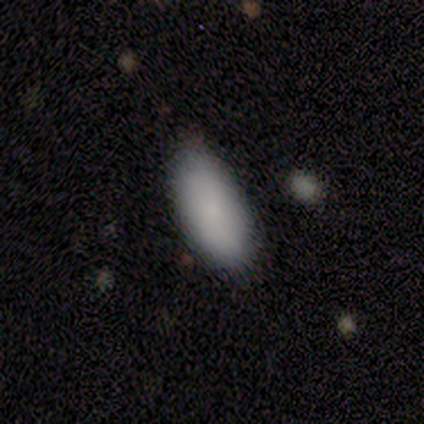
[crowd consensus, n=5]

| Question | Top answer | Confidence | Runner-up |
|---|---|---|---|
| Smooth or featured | smooth | 100% | — |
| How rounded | in between | 100% | — |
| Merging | none | 80% | minor disturbance (20%) |